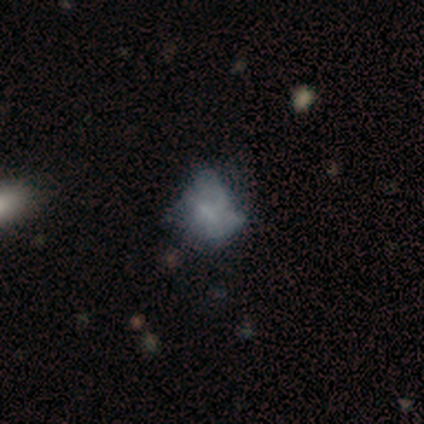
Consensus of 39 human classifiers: A smooth galaxy with no disk features (46%, tied with featured or disk) that is in between round and cigar-shaped (72%). Merging: none (42%).